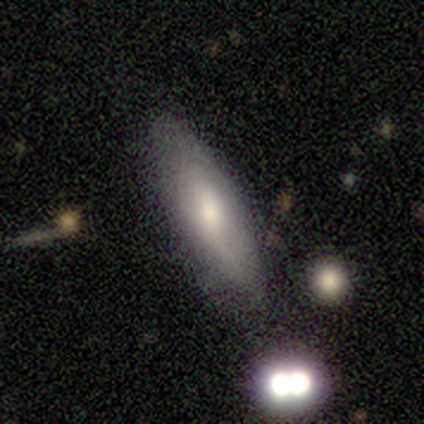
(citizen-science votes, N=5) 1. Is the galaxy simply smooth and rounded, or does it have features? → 80% smooth, 20% featured or disk, 0% star or artifact.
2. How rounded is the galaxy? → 75% in between, 25% cigar-shaped, 0% round.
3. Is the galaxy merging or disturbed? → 100% none, 0% minor disturbance, 0% major disturbance, 0% merger.